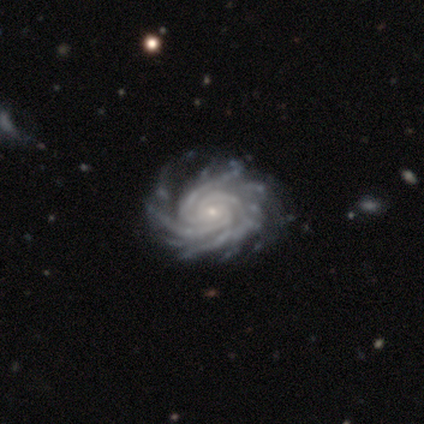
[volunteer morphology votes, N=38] Overall: featured or disk (100%). Edge-on disk: no (97%). Bar: no (81%). Spiral arms: yes (100%). Spiral arm count: more than 4 (32%; 3 27%). Spiral winding: tight (86%). Bulge size: small (84%). Merging: none (55%).